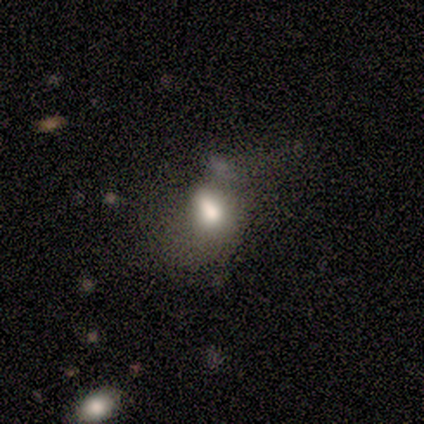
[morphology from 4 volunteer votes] Q: Smooth or featured?
A: smooth (75%); runner-up: featured or disk (25%)
Q: How rounded?
A: in between (100%)
Q: Merging?
A: minor disturbance (50%); runner-up: major disturbance (25%)